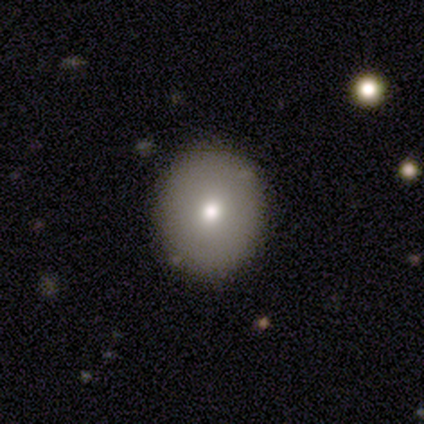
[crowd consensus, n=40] Smooth or featured: smooth — 85% (featured or disk — 12%)
How rounded: round — 74% (in between — 26%)
Merging: none — 85% (minor disturbance — 13%)